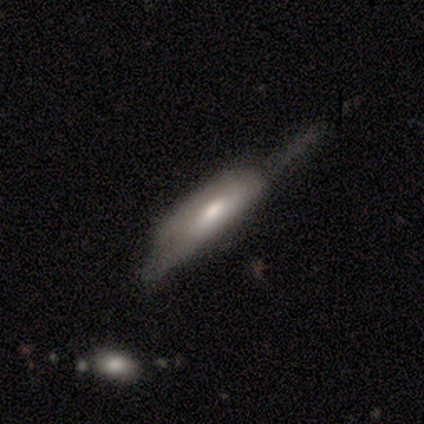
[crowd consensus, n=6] Smooth or featured: smooth — 50% (featured or disk — 33%)
How rounded: in between — 67% (cigar-shaped — 33%)
Merging: minor disturbance — 40% (tied with major disturbance — 40%)